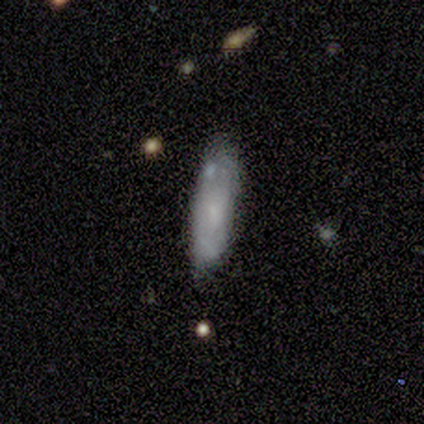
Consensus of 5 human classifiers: smooth_or_featured: smooth (p=0.60) [alt: featured or disk p=0.40]
how_rounded: cigar-shaped (p=1.00)
merging: none (p=0.60) [alt: minor disturbance p=0.40]